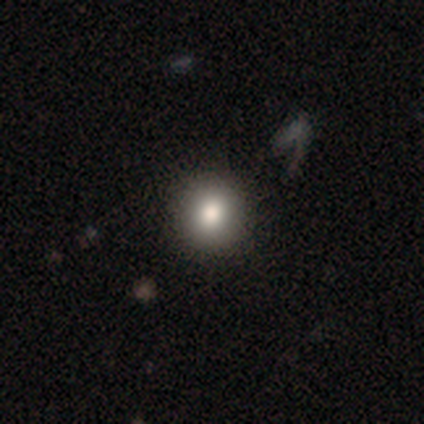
Volunteers were most divided on "merging": none: 75%, merger: 25%, minor disturbance: 0%, major disturbance: 0%. More confident: how rounded — round (100%); smooth or featured — smooth (80%).